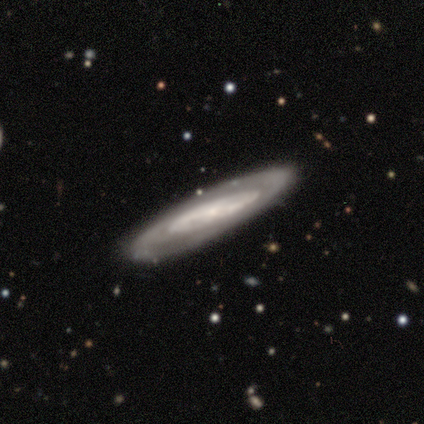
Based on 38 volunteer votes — Morphology: type=featured or disk (74%); edge-on=no (57%); bar=no (75%); spiral arms=yes (69%); winding=tight (73%); arm count=can't tell (82%); bulge=small (62%); merging=none (63%).